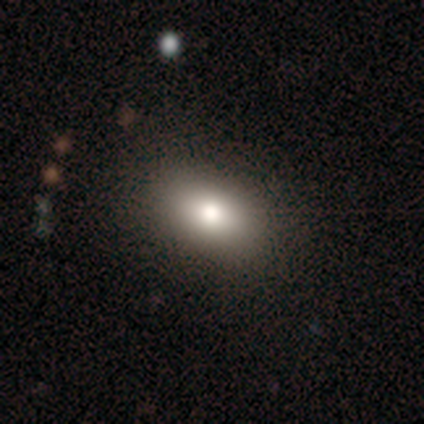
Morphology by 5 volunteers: Smooth or featured?
  - smooth: 60% *
  - featured or disk: 40%
  - star or artifact: 0%
How rounded?
  - in between: 100% *
  - round: 0%
  - cigar-shaped: 0%
Merging?
  - none: 100% *
  - minor disturbance: 0%
  - major disturbance: 0%
  - merger: 0%